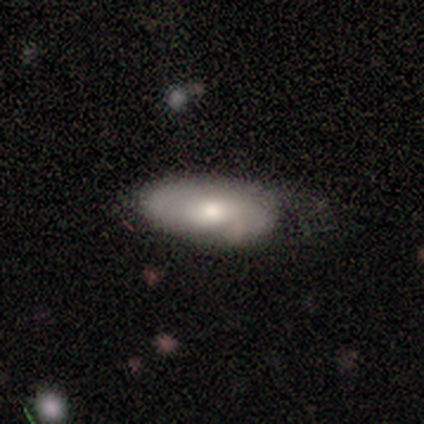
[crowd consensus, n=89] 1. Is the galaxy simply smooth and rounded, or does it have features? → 48% smooth, 43% featured or disk, 9% star or artifact.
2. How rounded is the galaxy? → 81% in between, 12% cigar-shaped, 7% round.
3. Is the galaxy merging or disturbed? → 52% none, 32% minor disturbance, 15% major disturbance, 1% merger.